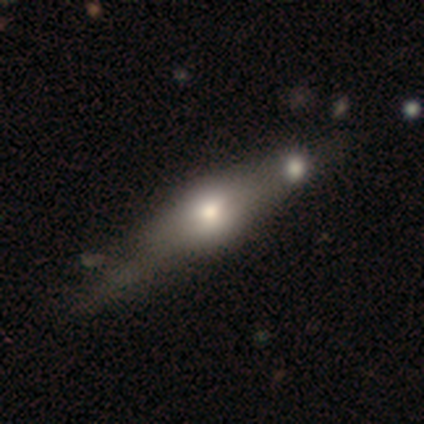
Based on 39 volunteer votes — This is possibly a featured or disk galaxy (49%). It is clearly viewed edge-on (95%). Edge-on bulge: clearly rounded (89%). Merging: marginally none (39%).